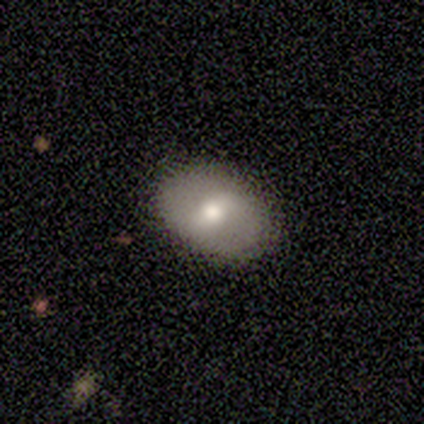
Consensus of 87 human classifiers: Volunteers were most divided on "smooth or featured": smooth: 59%, featured or disk: 33%, star or artifact: 8%. More confident: merging — none (88%); how rounded — in between (78%).